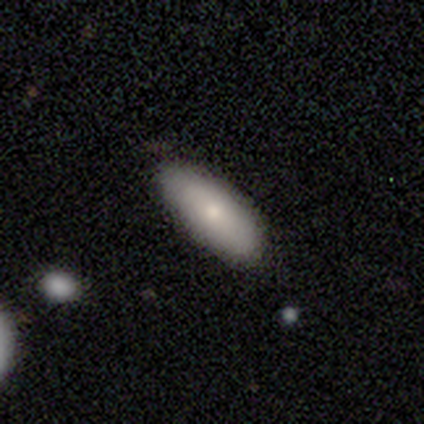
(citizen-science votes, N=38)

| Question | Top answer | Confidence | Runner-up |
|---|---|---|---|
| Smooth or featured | smooth | 84% | featured or disk (13%) |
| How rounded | in between | 72% | cigar-shaped (28%) |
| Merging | none | 84% | minor disturbance (16%) |